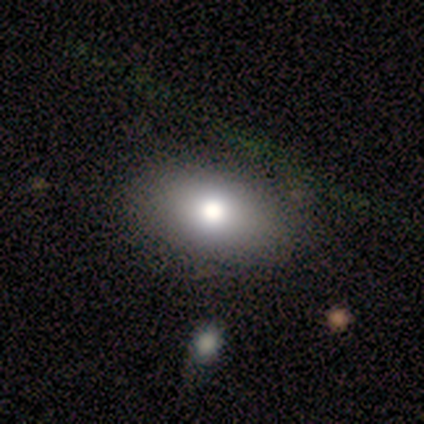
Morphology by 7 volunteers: Smooth or featured?
  - smooth: 86% *
  - star or artifact: 14%
  - featured or disk: 0%
How rounded?
  - in between: 83% *
  - round: 17%
  - cigar-shaped: 0%
Merging?
  - none: 83% *
  - major disturbance: 17%
  - minor disturbance: 0%
  - merger: 0%